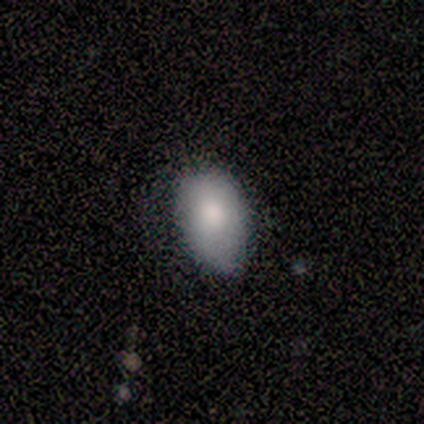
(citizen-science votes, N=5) Volunteers were most divided on "merging" (2-way tie): none: 40%, minor disturbance: 40%, major disturbance: 20%, merger: 0%. More confident: smooth or featured — smooth (100%); how rounded — in between (100%).